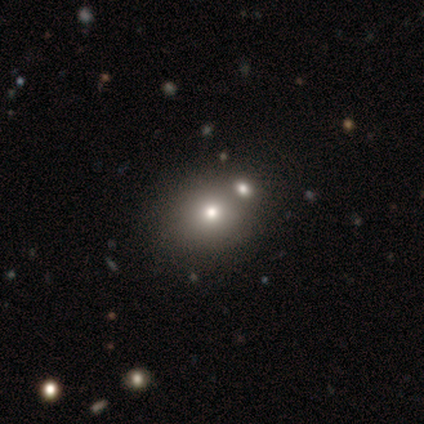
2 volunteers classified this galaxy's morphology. Smooth or featured?
  - smooth: 100% *
  - featured or disk: 0%
  - star or artifact: 0%
How rounded?
  - round: 100% *
  - in between: 0%
  - cigar-shaped: 0%
Merging?
  - none: 50% * (tied)
  - merger: 50% * (tied)
  - minor disturbance: 0%
  - major disturbance: 0%